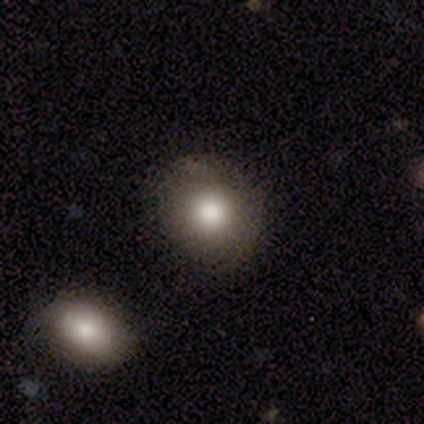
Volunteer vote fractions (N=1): Smooth or featured: smooth — 100%
How rounded: round — 100%
Merging: none — 100%